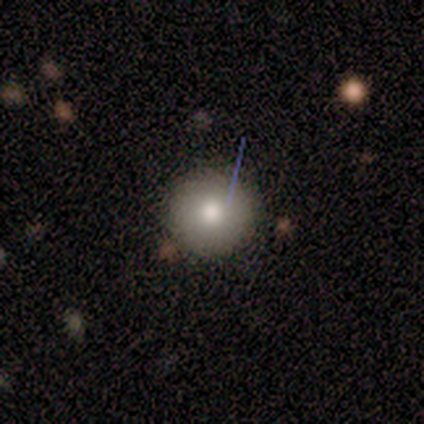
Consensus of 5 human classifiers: Overall: smooth (60%; featured or disk 40%). How rounded: round (100%). Merging: none (100%).